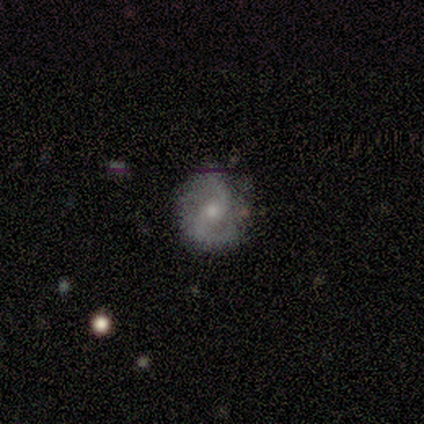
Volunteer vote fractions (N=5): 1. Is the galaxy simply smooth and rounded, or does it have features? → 100% featured or disk, 0% smooth, 0% star or artifact.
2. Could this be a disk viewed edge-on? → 100% no, 0% yes.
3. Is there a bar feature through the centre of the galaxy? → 60% no, 40% weak, 0% strong.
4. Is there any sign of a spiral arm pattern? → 80% yes, 20% no.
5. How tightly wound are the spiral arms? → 50% medium (tied), 50% loose (tied), 0% tight.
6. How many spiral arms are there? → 50% 2, 25% 4, 25% can't tell, 0% 1, 0% 3, 0% more than 4.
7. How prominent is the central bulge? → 60% small, 20% moderate, 20% none, 0% dominant, 0% large.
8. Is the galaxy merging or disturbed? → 80% none, 20% minor disturbance, 0% major disturbance, 0% merger.